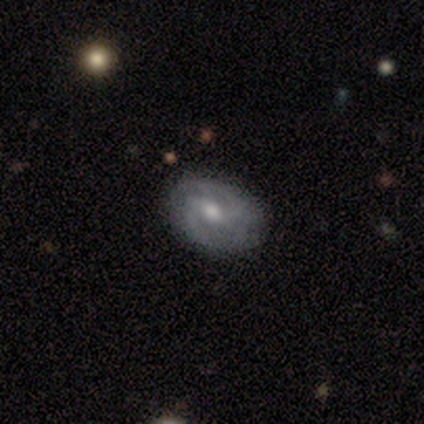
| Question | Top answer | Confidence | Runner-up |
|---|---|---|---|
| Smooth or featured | featured or disk | 80% | smooth (20%) |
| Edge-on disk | no | 100% | — |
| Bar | weak | 50% | strong (25%) |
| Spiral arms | yes | 100% | — |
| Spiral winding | medium | 75% | loose (25%) |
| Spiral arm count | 2 | 75% | can't tell (25%) |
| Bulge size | moderate | 75% | large (25%) |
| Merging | none | 100% | — |